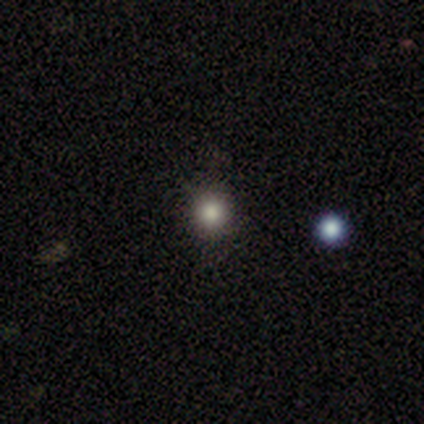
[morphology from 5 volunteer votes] smooth_or_featured: smooth (p=0.80) [alt: star or artifact p=0.20]
how_rounded: round (p=1.00)
merging: none (p=1.00)